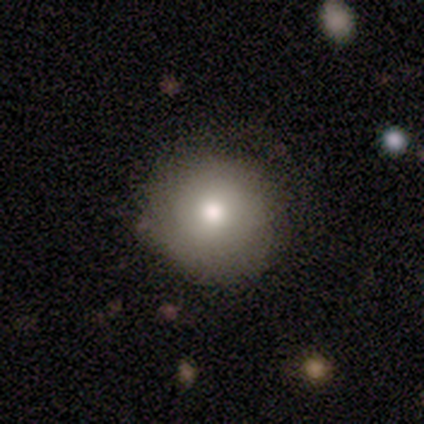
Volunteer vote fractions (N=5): This appears to be a smooth galaxy with no disk features (100%) that is round (100%). Merging: none (100%).